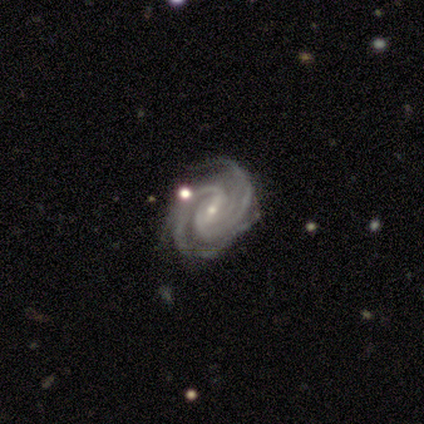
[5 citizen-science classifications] Smooth or featured? featured or disk (100%)
Edge-on disk? no (100%)
Bar? strong (40%, tied with no)
Spiral arms? yes (100%)
Spiral winding? tight (100%)
Spiral arm count? 3 (60%)
Bulge size? small (80%)
Merging? none (60%)